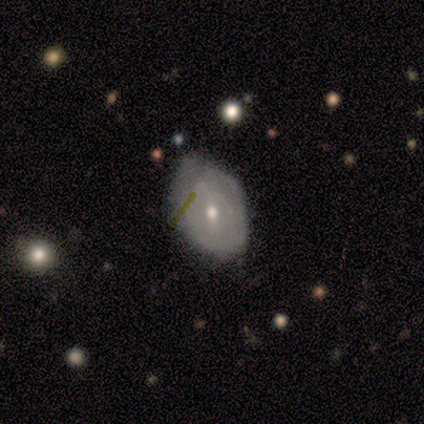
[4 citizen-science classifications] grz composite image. It shows a featured or disk galaxy (100%) with a strong bar (50%, tied with weak), 4 (50%, tied with can't tell) tight (50%, tied with medium) spiral arms (50%, tied with no) and a small central bulge (75%). Merging: none (50%, tied with minor disturbance).